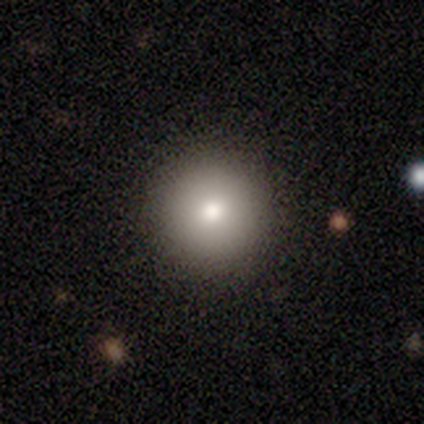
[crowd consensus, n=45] Smooth or featured? 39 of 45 (87%) said smooth. How rounded? 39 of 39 (100%) said round. Merging? 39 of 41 (95%) said none.